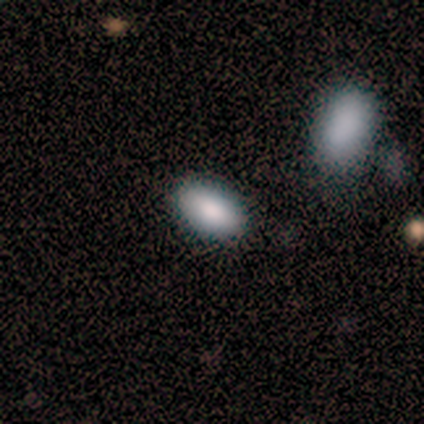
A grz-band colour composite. It shows a smooth galaxy with no disk features (100%) that is in between round and cigar-shaped (100%). Merging: none (100%).